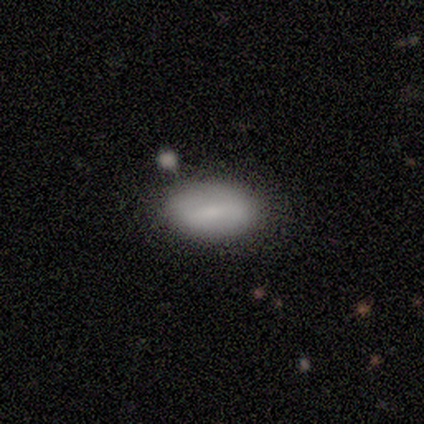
Q: Smooth or featured?
A: smooth (67%); runner-up: star or artifact (33%)
Q: How rounded?
A: in between (50%); tied with: cigar-shaped (50%)
Q: Merging?
A: none (50%); tied with: merger (50%)